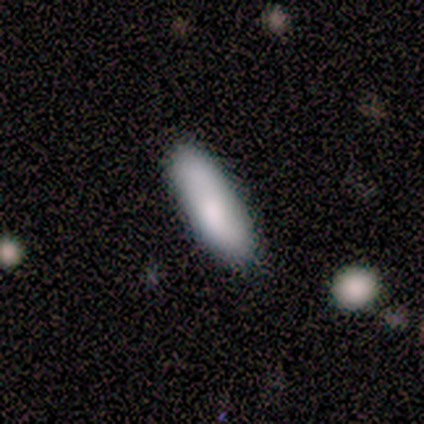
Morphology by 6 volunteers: A smooth galaxy with no disk features (83%) that is in between round and cigar-shaped (60%).

Vote fractions:
- Smooth or featured? smooth: 83% / featured or disk: 17% / star or artifact: 0%
- How rounded? in between: 60% / cigar-shaped: 40% / round: 0%
- Merging? none: 83% / minor disturbance: 17% / major disturbance: 0% / merger: 0%